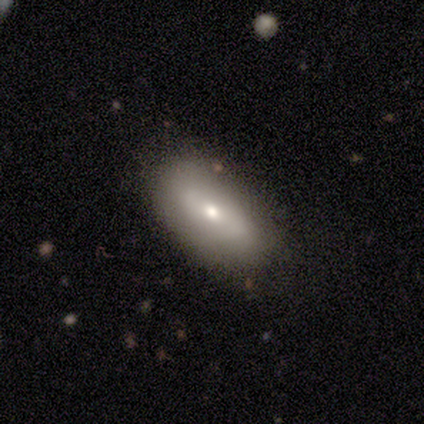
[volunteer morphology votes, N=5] A smooth galaxy with no disk features (60%) that is in between round and cigar-shaped (100%).

Vote fractions:
- Smooth or featured? smooth: 60% / star or artifact: 40% / featured or disk: 0%
- How rounded? in between: 100% / round: 0% / cigar-shaped: 0%
- Merging? none: 100% / minor disturbance: 0% / major disturbance: 0% / merger: 0%